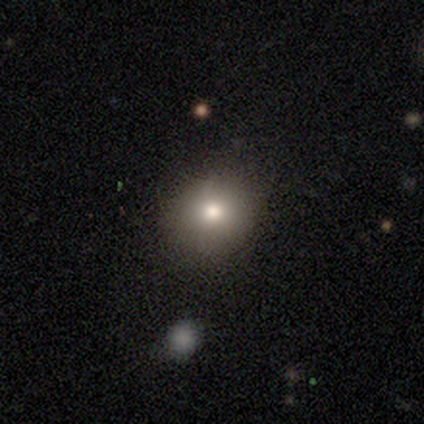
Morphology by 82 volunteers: This appears to be a smooth galaxy with no disk features (77%) that is round (78%). Merging: none (90%).